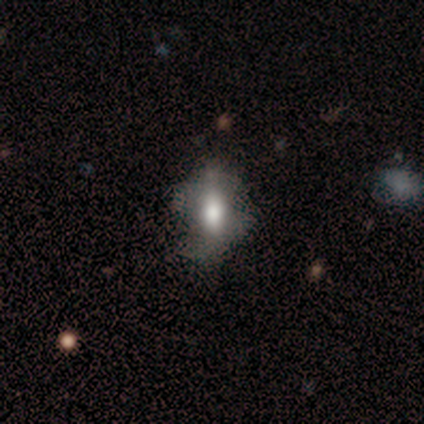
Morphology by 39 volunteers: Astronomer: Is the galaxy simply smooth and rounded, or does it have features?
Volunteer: smooth — 59%.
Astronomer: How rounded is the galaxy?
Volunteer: in between — 78%.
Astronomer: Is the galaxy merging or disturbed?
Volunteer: none — 34% (runner-up: major disturbance, 20%).